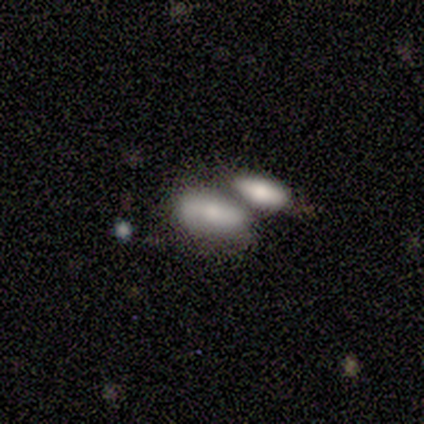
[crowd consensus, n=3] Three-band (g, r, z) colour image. It shows a smooth galaxy with no disk features (67%) that is in between round and cigar-shaped (100%). Merging: none (33%, tied with minor disturbance and merger).